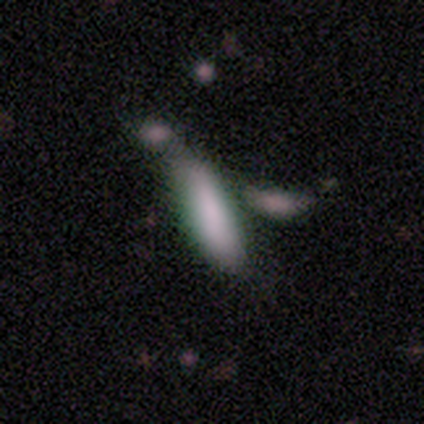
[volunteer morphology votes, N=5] This is clearly a smooth galaxy (100%). How rounded: likely in between (60%). Merging: likely none (60%).